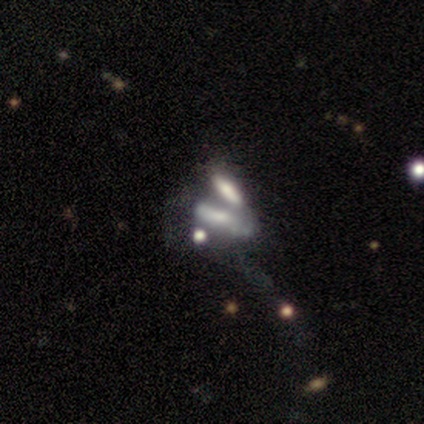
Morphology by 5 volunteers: type=smooth (40%, tied with featured or disk); roundness=in between (50%, tied with cigar-shaped); merging=merger (100%).